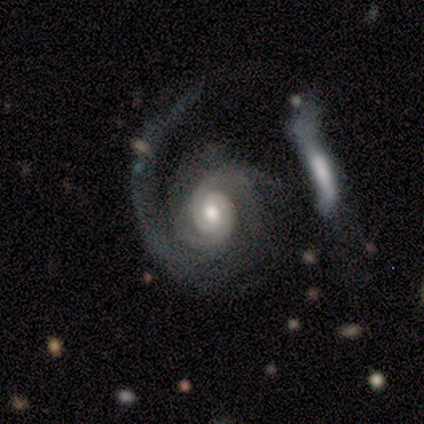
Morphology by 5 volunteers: This is clearly a featured or disk galaxy (100%). It is clearly not viewed edge-on (100%). Bar: clearly no (80%). Spiral arm pattern: clearly yes (100%). Spiral arm count: clearly 2 (80%). Spiral winding: marginally tight (40%, tied with medium). Central bulge: clearly moderate (80%). Merging: marginally none (40%, tied with major disturbance).